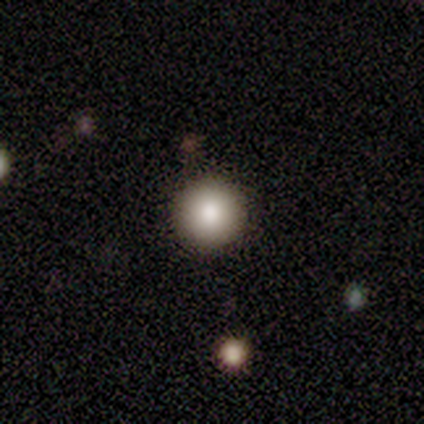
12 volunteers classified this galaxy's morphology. This appears to be a smooth galaxy with no disk features (100%) that is round (92%). Merging: none (83%).